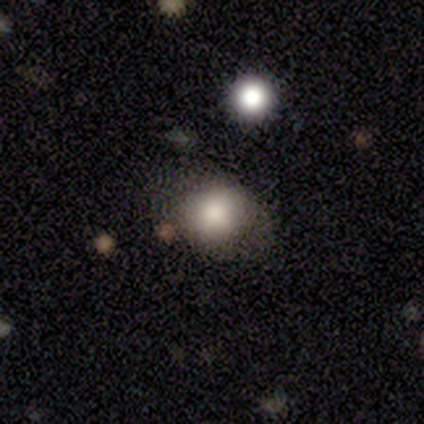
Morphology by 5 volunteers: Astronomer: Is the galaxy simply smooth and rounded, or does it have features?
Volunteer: smooth — 60%.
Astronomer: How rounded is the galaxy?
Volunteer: round — 67%.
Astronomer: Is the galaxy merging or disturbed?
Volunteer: none — 75%.